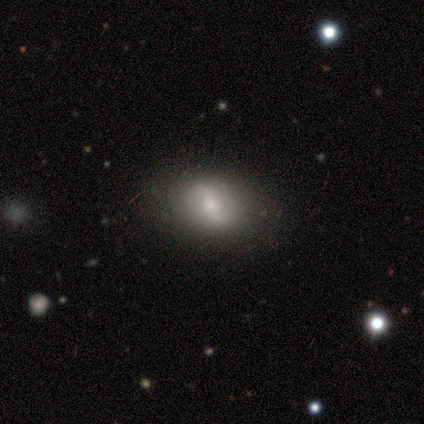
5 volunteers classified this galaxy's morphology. Smooth or featured? 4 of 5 (80%) said featured or disk. Edge-on disk? 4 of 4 (100%) said no. Bar? 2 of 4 (50%) said strong. Spiral arms? 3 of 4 (75%) said yes. Spiral winding? 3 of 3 (100%) said loose. Spiral arm count? 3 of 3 (100%) said 2. Bulge size? 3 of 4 (75%) said small. Merging? 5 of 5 (100%) said none.